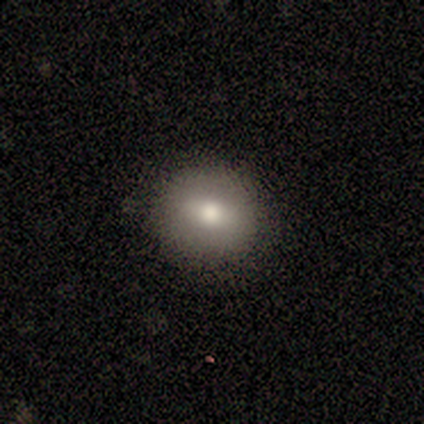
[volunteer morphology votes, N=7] This is likely a smooth galaxy (71%). How rounded: clearly round (80%). Merging: clearly none (86%).